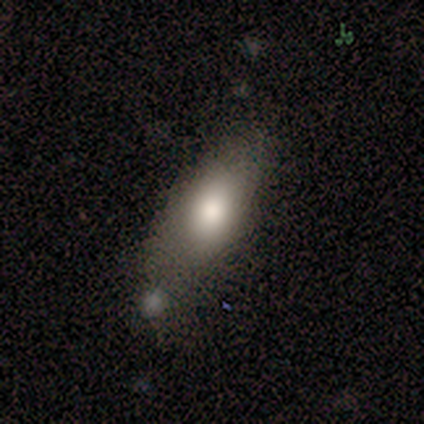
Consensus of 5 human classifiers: A smooth galaxy with no disk features (60%) that is in between round and cigar-shaped (100%). Merging: none (80%).